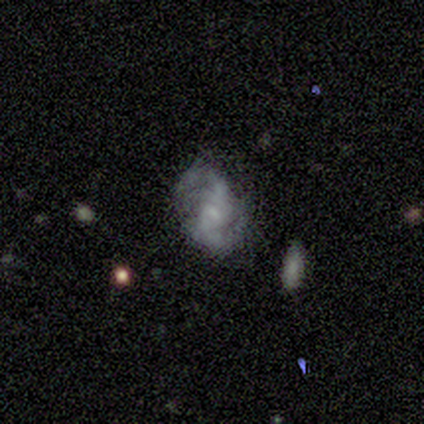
Smooth or featured? 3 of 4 (75%) said featured or disk. Edge-on disk? 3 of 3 (100%) said no. Bar? 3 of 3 (100%) said no. Spiral arms? 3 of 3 (100%) said yes. Spiral winding? 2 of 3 (67%) said loose. Spiral arm count? 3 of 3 (100%) said 2. Bulge size? 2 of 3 (67%) said small. Merging? 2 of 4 (50%) said major disturbance.